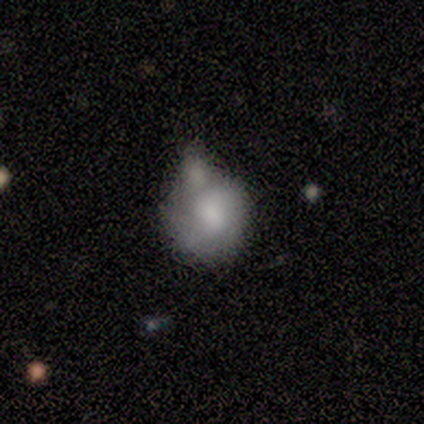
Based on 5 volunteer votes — Smooth or featured?
  - smooth: 100% *
  - featured or disk: 0%
  - star or artifact: 0%
How rounded?
  - round: 100% *
  - in between: 0%
  - cigar-shaped: 0%
Merging?
  - minor disturbance: 40% * (tied)
  - merger: 40% * (tied)
  - none: 20%
  - major disturbance: 0%